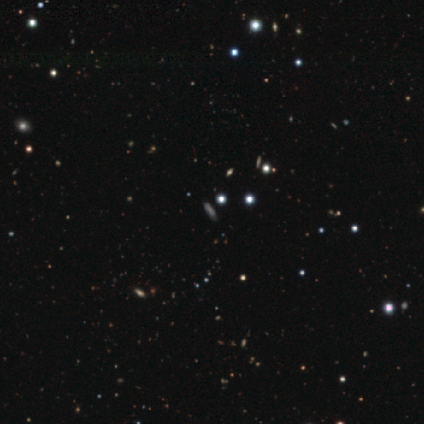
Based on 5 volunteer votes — This appears to be a star or artifact, not a galaxy (80%).